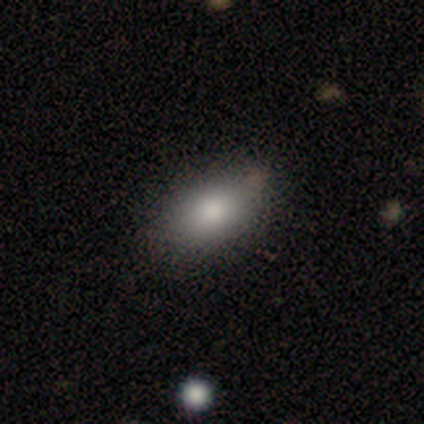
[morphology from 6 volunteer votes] Q: Smooth or featured?
A: smooth (83%); runner-up: star or artifact (17%)
Q: How rounded?
A: in between (100%)
Q: Merging?
A: none (80%); runner-up: minor disturbance (20%)